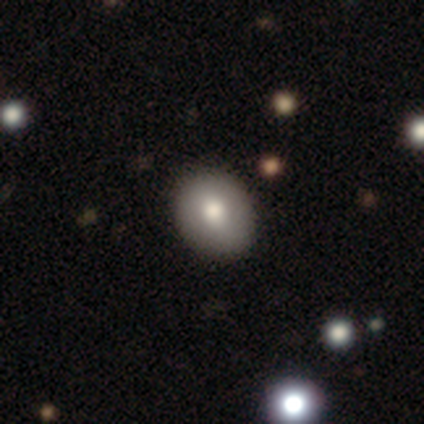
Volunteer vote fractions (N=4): smooth 100%, featured or disk 0%, star or artifact 0%. Down the decision tree: how rounded — round (75%); merging — none (100%).